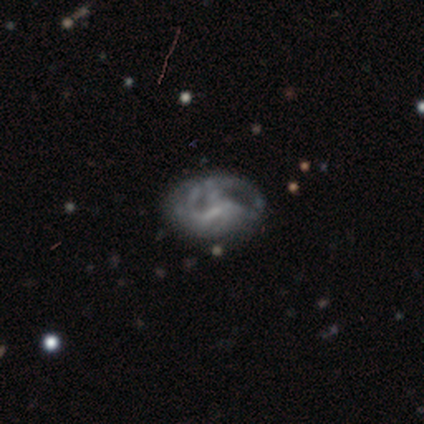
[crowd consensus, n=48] featured or disk 69%, smooth 27%, star or artifact 4%. Down the decision tree: edge-on disk — no (100%); bar — no (42%); spiral arms — yes (67%); spiral arm count — can't tell (64%); spiral winding — tight (55%); bulge size — none (67%); merging — none (52%).